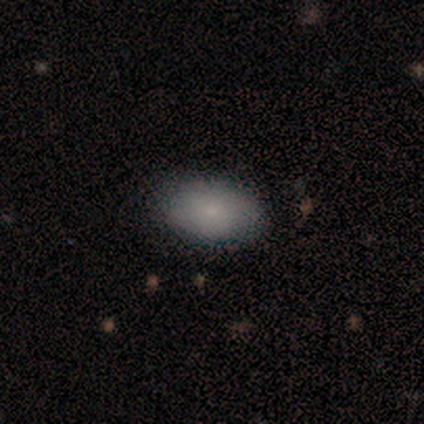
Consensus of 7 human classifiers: Smooth or featured? 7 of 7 (100%) said smooth. How rounded? 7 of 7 (100%) said in between. Merging? 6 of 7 (86%) said none.